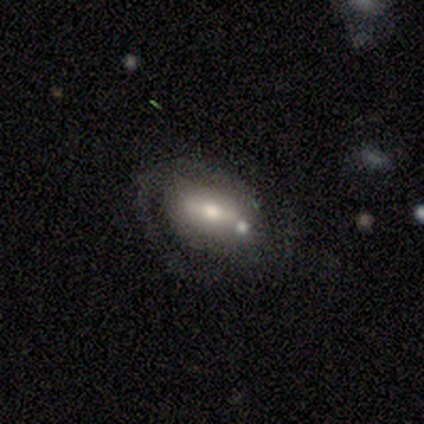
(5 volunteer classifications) Smooth or featured? 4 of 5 (80%) said featured or disk. Edge-on disk? 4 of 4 (100%) said no. Bar? 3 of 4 (75%) said weak. Spiral arms? 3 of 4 (75%) said yes. Spiral winding? 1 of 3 (33%, tied with medium and loose) said tight. Spiral arm count? 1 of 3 (33%, tied with 2 and can't tell) said 1. Bulge size? 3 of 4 (75%) said moderate. Merging? 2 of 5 (40%, tied with minor disturbance) said none.